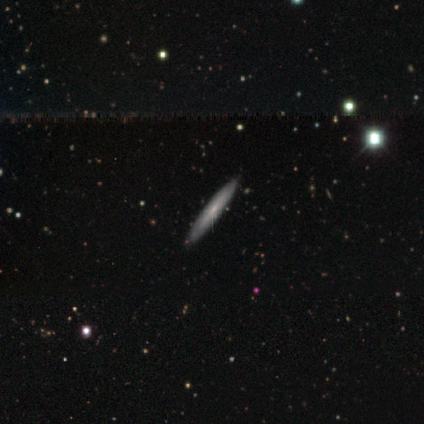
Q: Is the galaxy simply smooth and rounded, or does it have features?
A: featured or disk — 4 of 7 (57%).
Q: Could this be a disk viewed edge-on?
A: yes — 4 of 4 (100%).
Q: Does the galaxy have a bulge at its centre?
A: none — 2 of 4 (50%, tied with rounded).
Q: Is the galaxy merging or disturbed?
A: none — 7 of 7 (100%).